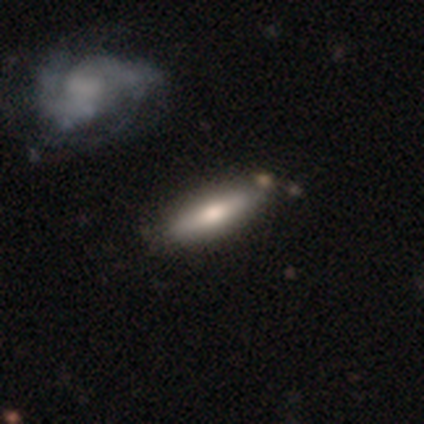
Smooth or featured? featured or disk (75%)
Edge-on disk? yes (67%)
Edge-on bulge? rounded (75%)
Merging? none (88%)